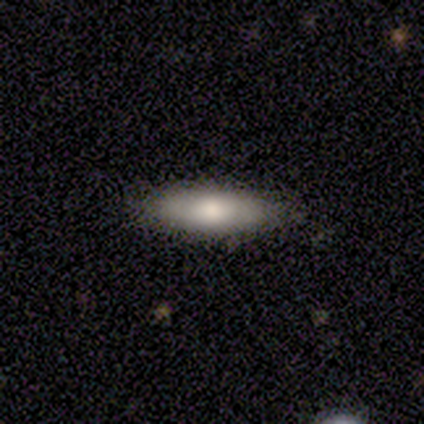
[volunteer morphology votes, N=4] Smooth or featured: smooth — 75% (featured or disk — 25%)
How rounded: in between — 100%
Merging: none — 100%